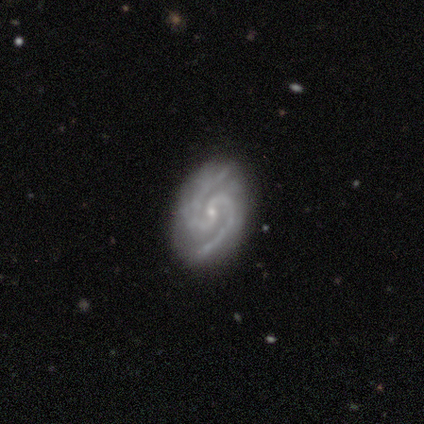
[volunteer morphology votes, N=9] Overall: featured or disk (100%). Edge-on disk: no (100%). Bar: no (67%; weak 33%). Spiral arms: yes (100%). Spiral arm count: 2 (89%). Spiral winding: medium (56%; tight 22%). Bulge size: small (67%; moderate 33%). Merging: none (78%).